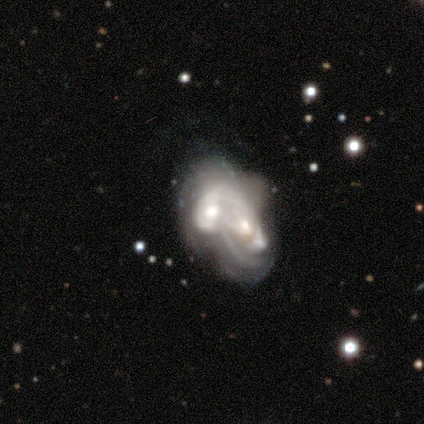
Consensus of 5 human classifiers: featured or disk 80%, smooth 20%, star or artifact 0%. Down the decision tree: edge-on disk — no (100%); bar — weak (50%, tied with no); spiral arms — no (75%); bulge size — moderate (75%); merging — merger (80%).